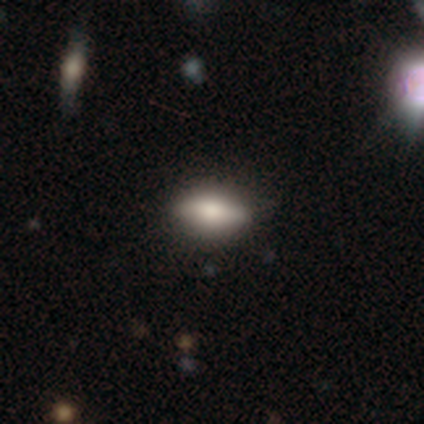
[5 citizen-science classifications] Smooth or featured? 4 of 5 (80%) said smooth. How rounded? 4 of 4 (100%) said in between. Merging? 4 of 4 (100%) said none.